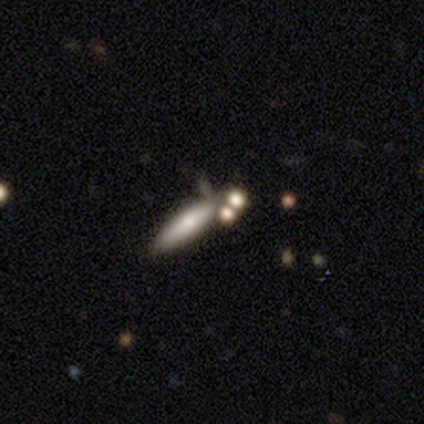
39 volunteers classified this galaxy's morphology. type=smooth (67%); roundness=cigar-shaped (54%); merging=none (51%).